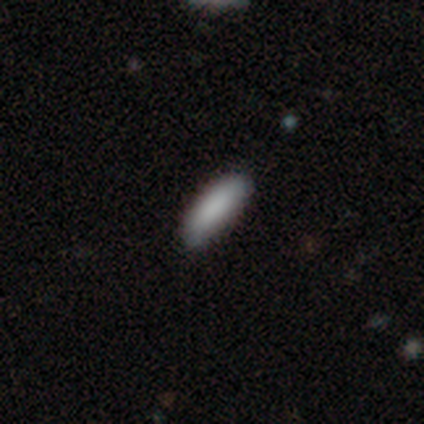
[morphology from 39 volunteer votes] Smooth or featured: smooth — 82% (featured or disk — 15%)
How rounded: cigar-shaped — 53% (in between — 47%)
Merging: none — 53% (minor disturbance — 8%)